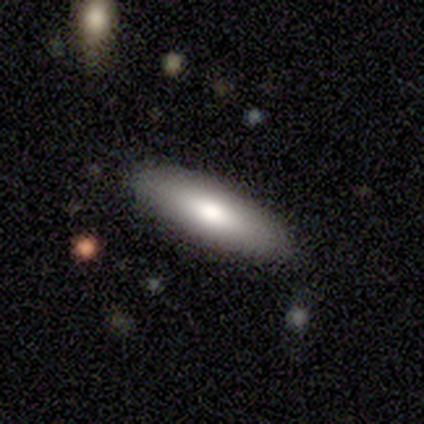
Smooth or featured? 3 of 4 (75%) said smooth. How rounded? 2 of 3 (67%) said cigar-shaped. Merging? 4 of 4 (100%) said none.